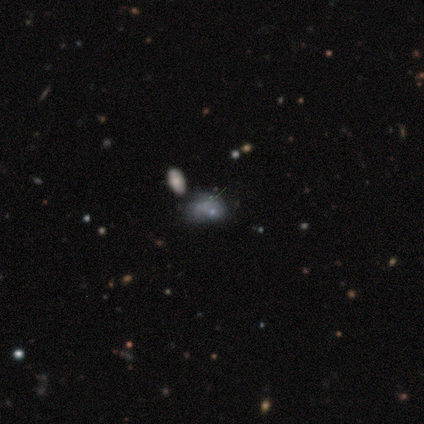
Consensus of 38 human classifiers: Overall: featured or disk (42%; smooth 34%). Edge-on disk: no (100%). Bar: no (81%). Spiral arms: no (88%). Bulge size: small (44%, tied with none). Merging: none (41%; merger 24%).